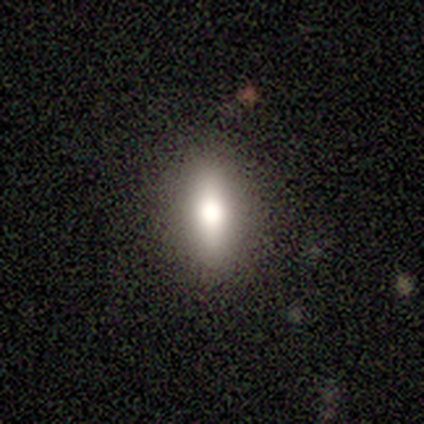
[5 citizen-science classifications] Smooth or featured: smooth — 60% (featured or disk — 40%)
How rounded: in between — 100%
Merging: none — 80% (minor disturbance — 20%)